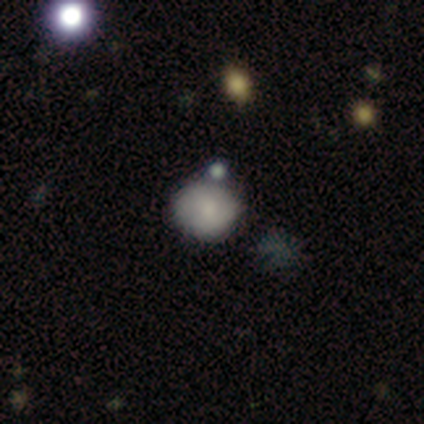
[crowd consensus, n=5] Smooth or featured: smooth — 40% (tied with featured or disk — 40%)
How rounded: round — 50% (tied with in between — 50%)
Merging: none — 75% (major disturbance — 25%)